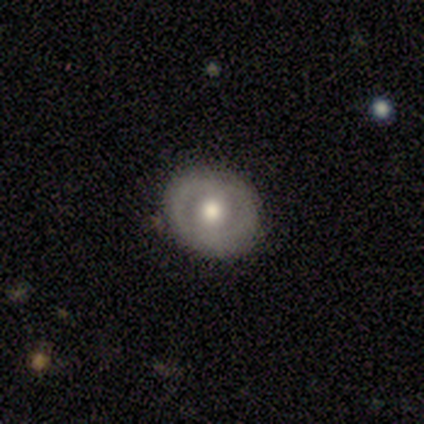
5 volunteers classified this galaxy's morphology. Q: Smooth or featured?
A: featured or disk (80%); runner-up: smooth (20%)
Q: Edge-on disk?
A: no (100%)
Q: Bar?
A: weak (50%); tied with: no (50%)
Q: Spiral arms?
A: no (75%); runner-up: yes (25%)
Q: Bulge size?
A: moderate (75%); runner-up: small (25%)
Q: Merging?
A: none (100%)